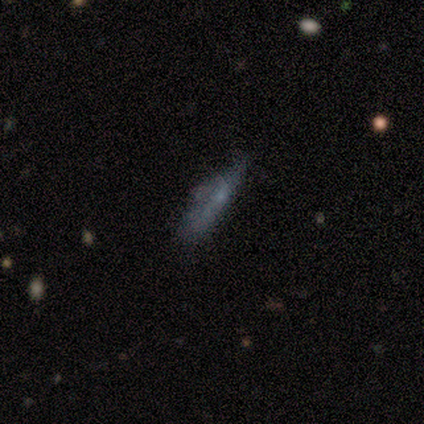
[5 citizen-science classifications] smooth_or_featured: smooth (p=0.60) [alt: featured or disk p=0.20]
how_rounded: cigar-shaped (p=1.00)
merging: none (p=0.50) [alt: minor disturbance p=0.25]